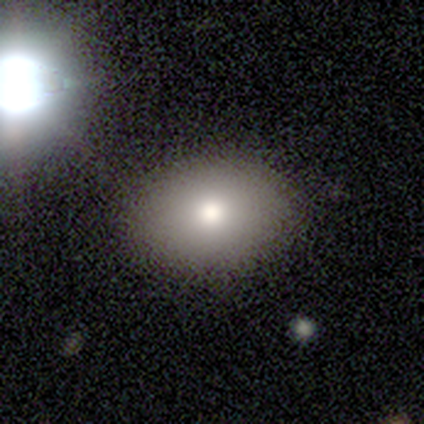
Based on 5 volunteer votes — Smooth or featured?
  - smooth: 100% *
  - featured or disk: 0%
  - star or artifact: 0%
How rounded?
  - in between: 80% *
  - round: 20%
  - cigar-shaped: 0%
Merging?
  - none: 80% *
  - minor disturbance: 20%
  - major disturbance: 0%
  - merger: 0%